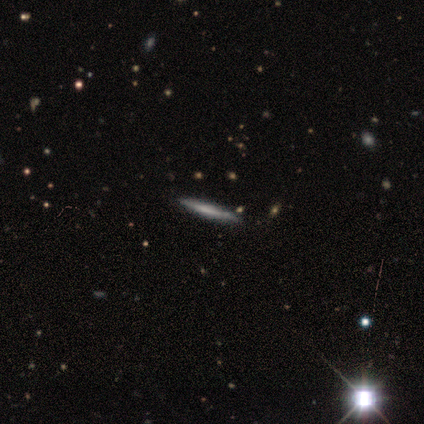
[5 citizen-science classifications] Overall: smooth (60%; featured or disk 40%). How rounded: cigar-shaped (100%). Merging: none (80%).